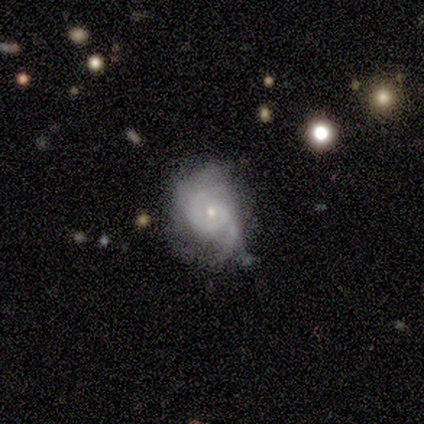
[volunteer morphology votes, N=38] Overall: featured or disk (71%). Edge-on disk: no (96%). Bar: no (77%). Spiral arms: yes (88%). Spiral arm count: 2 (78%). Spiral winding: medium (52%; tight 35%). Bulge size: small (65%; moderate 27%). Merging: none (36%, tied with minor disturbance).